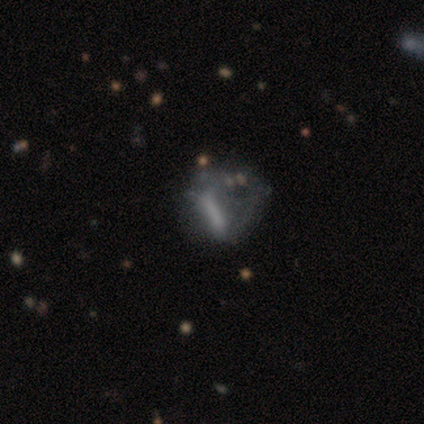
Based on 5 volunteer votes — smooth_or_featured: featured or disk (p=0.80) [alt: star or artifact p=0.20]
disk_edge_on: no (p=1.00)
bar: no (p=0.50) [alt: strong p=0.25]
has_spiral_arms: no (p=0.75) [alt: yes p=0.25]
bulge_size: small (p=0.50) [tied with: none p=0.50]
merging: none (p=0.50) [tied with: minor disturbance p=0.50]